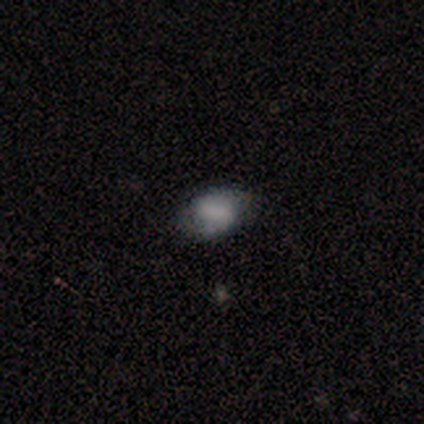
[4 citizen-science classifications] Overall: smooth (75%). How rounded: in between (100%). Merging: none (75%).